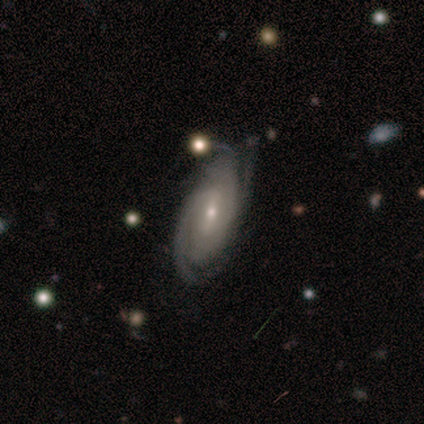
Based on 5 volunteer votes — A featured or disk galaxy (80%) with a weak bar (50%), 3 (75%) tight (50%, tied with medium) spiral arms (100%) and a small central bulge (100%).

Vote fractions:
- Smooth or featured? featured or disk: 80% / smooth: 20% / star or artifact: 0%
- Edge-on disk? no: 100% / yes: 0%
- Bar? weak: 50% / strong: 25% / no: 25%
- Spiral arms? yes: 100% / no: 0%
- Spiral winding? tight: 50% (tied) / medium: 50% (tied) / loose: 0%
- Spiral arm count? 3: 75% / 4: 25% / 1: 0% / 2: 0% / more than 4: 0% / can't tell: 0%
- Bulge size? small: 100% / dominant: 0% / large: 0% / moderate: 0% / none: 0%
- Merging? none: 100% / minor disturbance: 0% / major disturbance: 0% / merger: 0%